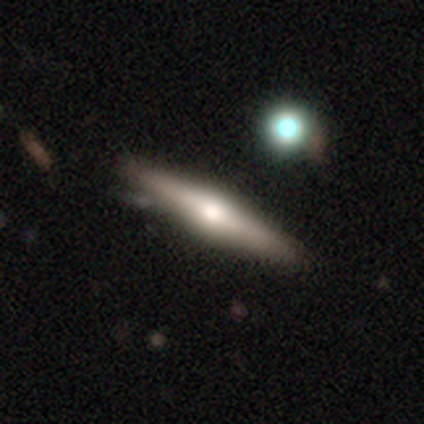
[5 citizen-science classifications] smooth-or-featured: featured or disk: 60% | smooth: 40% | star or artifact: 0%
  disk-edge-on: yes: 100% | no: 0%
    edge-on-bulge: rounded: 100% | boxy: 0% | none: 0%
  merging: none: 80% | minor disturbance: 20% | major disturbance: 0% | merger: 0%